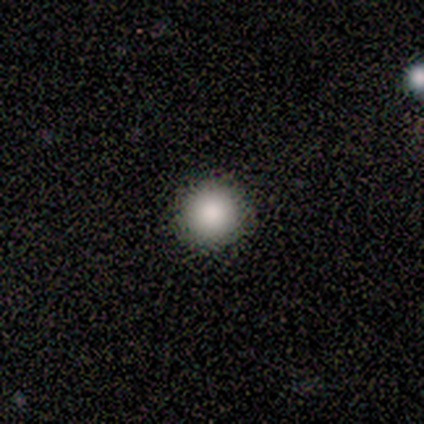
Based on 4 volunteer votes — Overall: smooth (75%). How rounded: round (100%). Merging: none (100%).